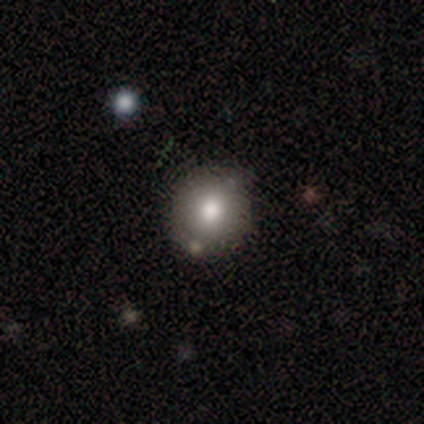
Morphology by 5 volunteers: smooth-or-featured: smooth: 80% | featured or disk: 20% | star or artifact: 0%
  how-rounded: round: 100% | in between: 0% | cigar-shaped: 0%
  merging: none: 40% | minor disturbance: 20% | major disturbance: 20% | merger: 20%